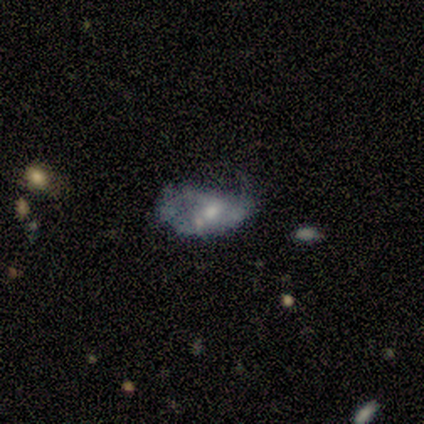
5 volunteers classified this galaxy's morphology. Smooth or featured?
  - featured or disk: 60% *
  - smooth: 40%
  - star or artifact: 0%
Edge-on disk?
  - no: 100% *
  - yes: 0%
Bar?
  - no: 67% *
  - weak: 33%
  - strong: 0%
Spiral arms?
  - no: 67% *
  - yes: 33%
Bulge size?
  - moderate: 67% *
  - small: 33%
  - dominant: 0%
  - large: 0%
  - none: 0%
Merging?
  - major disturbance: 80% *
  - minor disturbance: 20%
  - none: 0%
  - merger: 0%